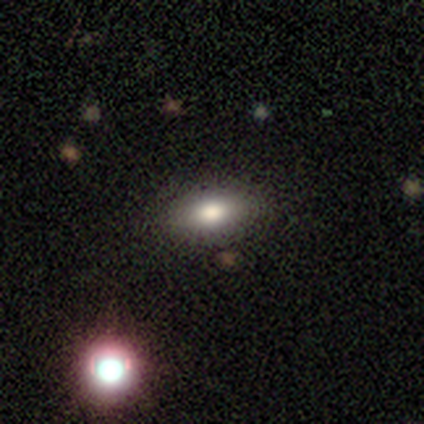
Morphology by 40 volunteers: Smooth or featured: smooth — 82% (star or artifact — 12%)
How rounded: in between — 76% (cigar-shaped — 15%)
Merging: none — 86% (minor disturbance — 11%)